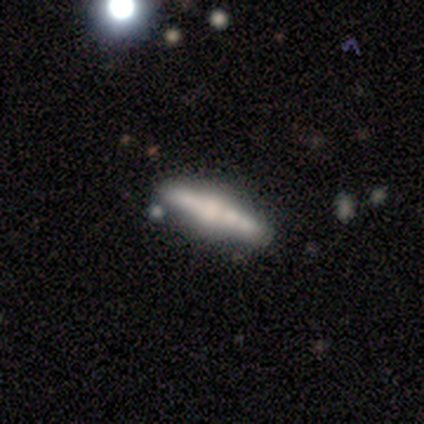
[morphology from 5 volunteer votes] type=featured or disk (80%); edge-on=yes (100%); edge-on bulge=rounded (75%); merging=none (100%).